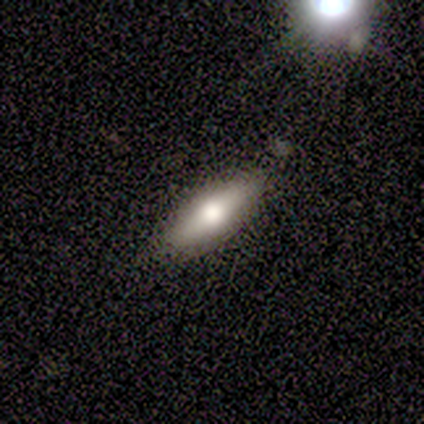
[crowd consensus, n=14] smooth-or-featured: smooth: 64% | featured or disk: 29% | star or artifact: 7%
  how-rounded: cigar-shaped: 56% | in between: 44% | round: 0%
  merging: none: 85% | merger: 15% | minor disturbance: 0% | major disturbance: 0%